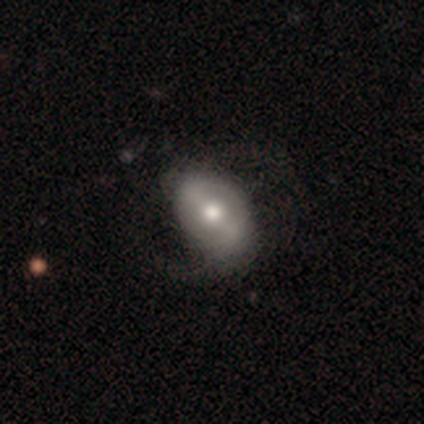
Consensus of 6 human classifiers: A featured or disk galaxy (83%) with a weak bar (60%), no spiral arms (60%) and a moderate central bulge (60%).

Vote fractions:
- Smooth or featured? featured or disk: 83% / smooth: 17% / star or artifact: 0%
- Edge-on disk? no: 100% / yes: 0%
- Bar? weak: 60% / strong: 20% / no: 20%
- Spiral arms? no: 60% / yes: 40%
- Bulge size? moderate: 60% / large: 20% / small: 20% / dominant: 0% / none: 0%
- Merging? minor disturbance: 67% / none: 17% / major disturbance: 17% / merger: 0%